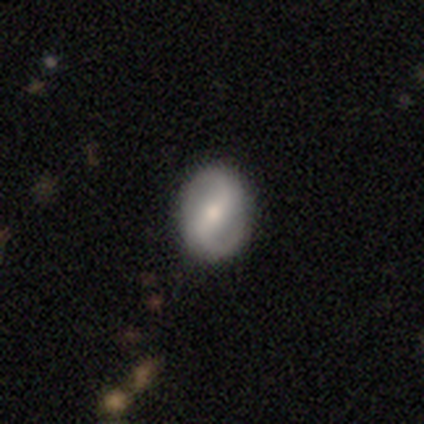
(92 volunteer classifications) Smooth or featured? featured or disk (62%)
Edge-on disk? no (96%)
Bar? strong (55%)
Spiral arms? yes (89%)
Spiral winding? medium (49%)
Spiral arm count? 2 (96%)
Bulge size? moderate (53%)
Merging? none (89%)